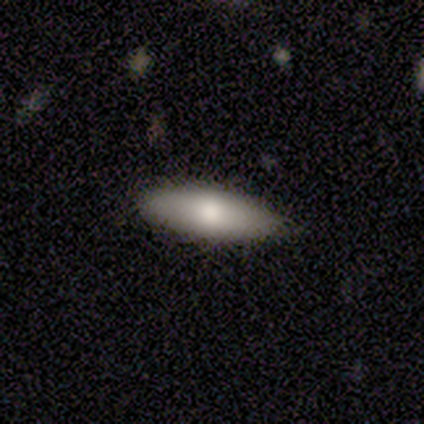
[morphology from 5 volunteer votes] smooth_or_featured: smooth (p=0.60) [alt: featured or disk p=0.40]
how_rounded: in between (p=0.67) [alt: cigar-shaped p=0.33]
merging: none (p=1.00)